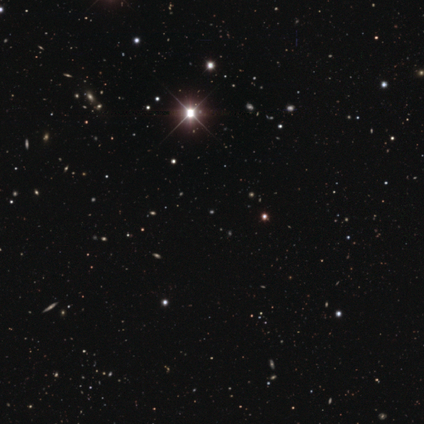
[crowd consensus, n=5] Consensus on every question: smooth or featured — star or artifact (100%).